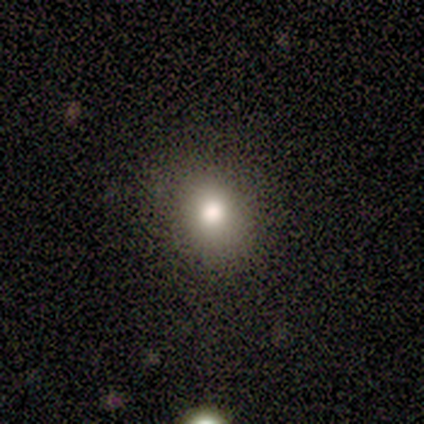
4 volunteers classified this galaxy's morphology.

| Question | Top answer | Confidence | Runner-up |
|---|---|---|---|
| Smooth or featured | smooth | 75% | featured or disk (25%) |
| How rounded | round | 100% | — |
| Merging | none | 50% | tied: major disturbance (50%) |